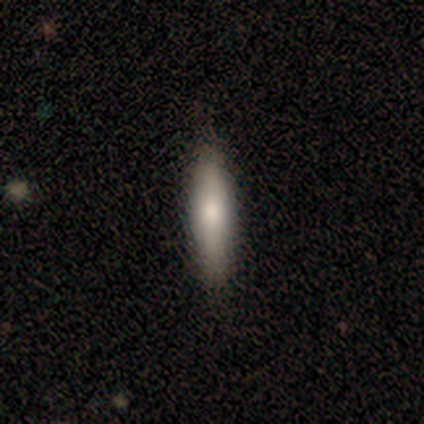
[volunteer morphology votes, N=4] A smooth galaxy with no disk features (75%) that is cigar-shaped (100%). Merging: none (67%).